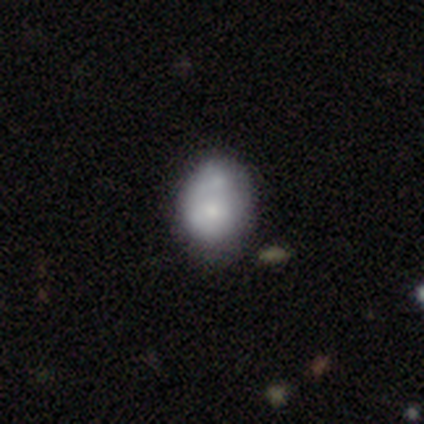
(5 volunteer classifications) Smooth or featured? smooth (60%)
How rounded? round (100%)
Merging? none (75%)